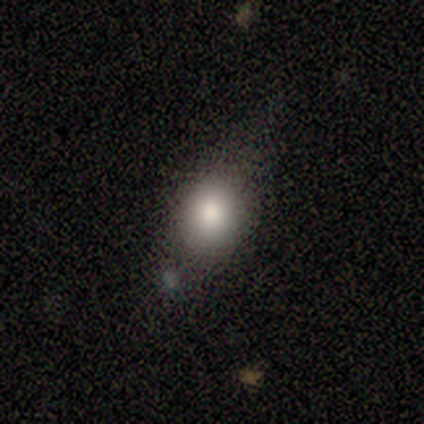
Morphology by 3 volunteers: smooth-or-featured: smooth: 100% | featured or disk: 0% | star or artifact: 0%
  how-rounded: round: 67% | cigar-shaped: 33% | in between: 0%
  merging: none: 67% | minor disturbance: 33% | major disturbance: 0% | merger: 0%